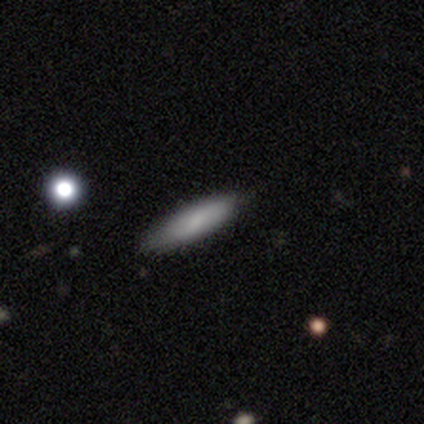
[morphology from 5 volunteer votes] This is marginally a smooth galaxy (40%, tied with featured or disk). How rounded: clearly cigar-shaped (100%). Merging: clearly none (100%).